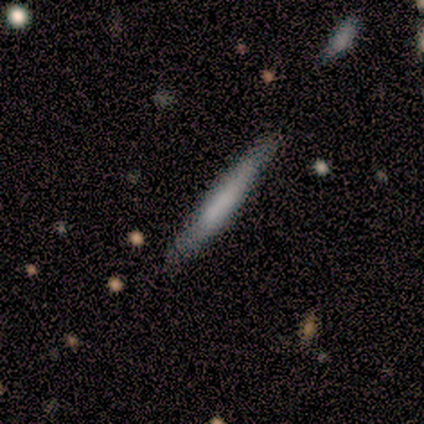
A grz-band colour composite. It shows a smooth galaxy with no disk features (60%) that is cigar-shaped (100%). Merging: none (80%).